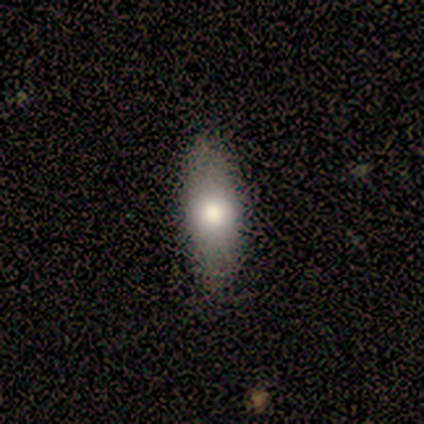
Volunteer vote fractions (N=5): This appears to be a smooth galaxy with no disk features (60%) that is in between round and cigar-shaped (100%). Merging: none (80%).